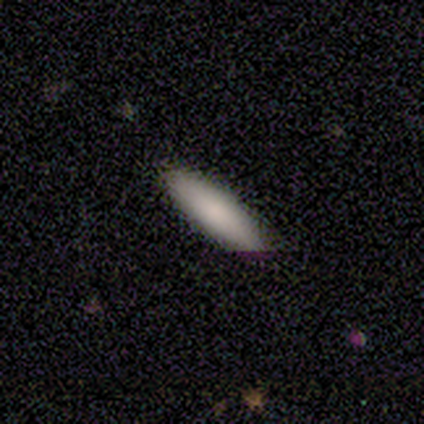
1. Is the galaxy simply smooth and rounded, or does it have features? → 100% smooth, 0% featured or disk, 0% star or artifact.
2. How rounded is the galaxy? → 67% cigar-shaped, 33% in between, 0% round.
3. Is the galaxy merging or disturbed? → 100% none, 0% minor disturbance, 0% major disturbance, 0% merger.